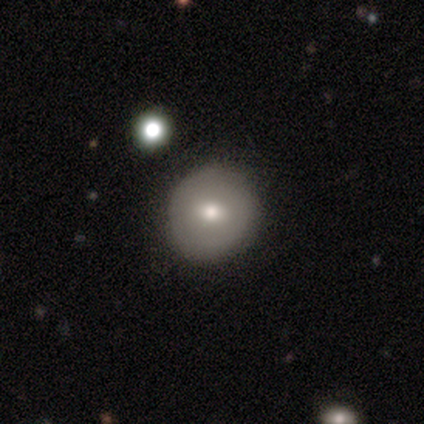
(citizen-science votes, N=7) smooth-or-featured: smooth: 57% | featured or disk: 29% | star or artifact: 14%
  how-rounded: round: 75% | in between: 25% | cigar-shaped: 0%
  merging: none: 83% | minor disturbance: 17% | major disturbance: 0% | merger: 0%